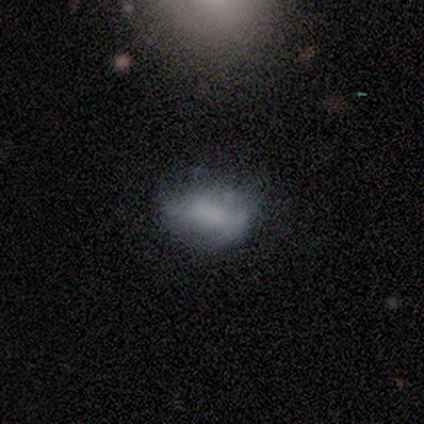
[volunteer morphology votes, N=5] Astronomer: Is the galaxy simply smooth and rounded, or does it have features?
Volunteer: featured or disk — 40%, tied with star or artifact at 40%.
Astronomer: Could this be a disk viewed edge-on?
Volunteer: no — 100%.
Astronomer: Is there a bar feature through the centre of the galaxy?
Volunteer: weak — 50%, tied with no at 50%.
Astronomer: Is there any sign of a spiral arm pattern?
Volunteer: no — 100%.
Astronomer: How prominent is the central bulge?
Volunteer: small — 100%.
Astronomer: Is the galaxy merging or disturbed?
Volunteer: minor disturbance — 67%.